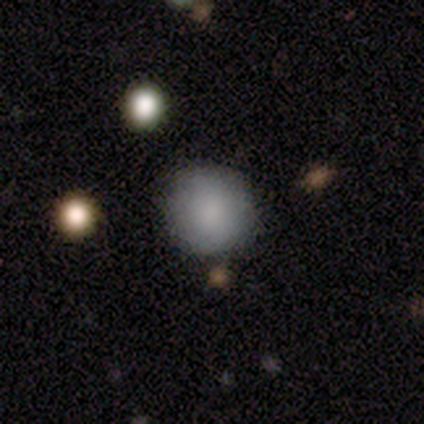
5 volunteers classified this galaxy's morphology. Smooth or featured? smooth (80%)
How rounded? round (100%)
Merging? none (100%)